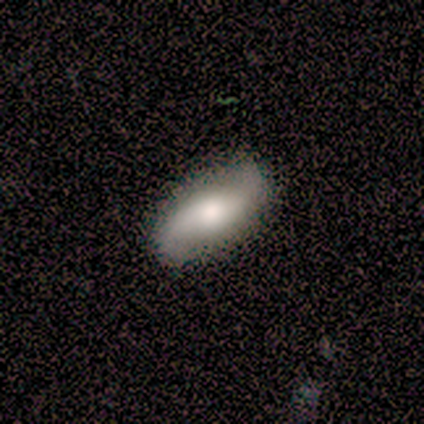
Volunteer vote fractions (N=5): This appears to be a featured or disk galaxy (80%) with a strong bar (67%), 2 (100%) loose (100%) spiral arms (67%) and a large central bulge (67%). Merging: none (80%).